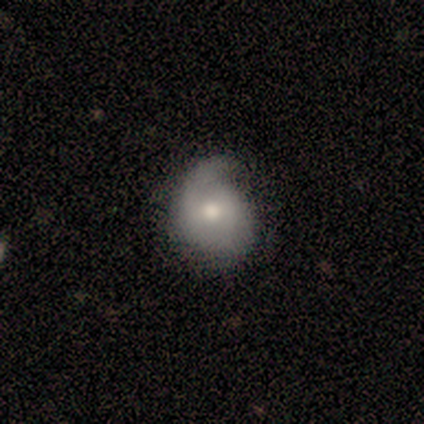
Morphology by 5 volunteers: smooth 60%, featured or disk 40%, star or artifact 0%. Down the decision tree: how rounded — round (67%); merging — minor disturbance (60%).